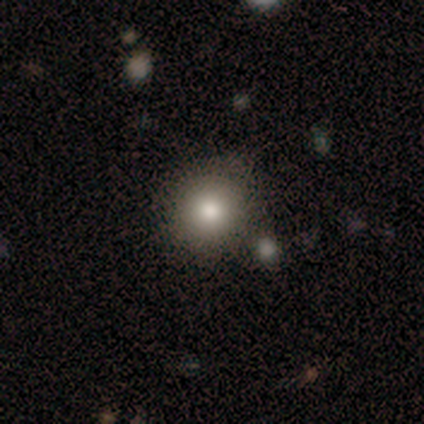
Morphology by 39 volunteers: type=smooth (79%); roundness=round (90%); merging=none (64%).